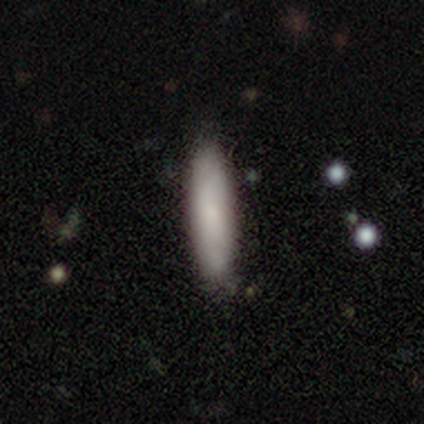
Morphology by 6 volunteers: Smooth or featured? smooth (83%)
How rounded? cigar-shaped (100%)
Merging? none (80%)